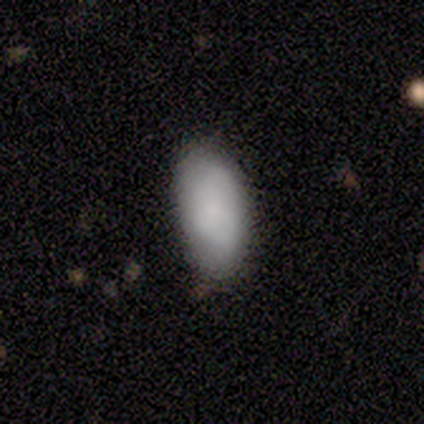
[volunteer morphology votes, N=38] Smooth or featured? smooth (82%)
How rounded? in between (100%)
Merging? none (88%)